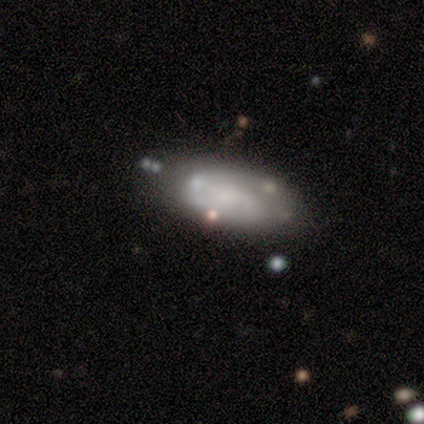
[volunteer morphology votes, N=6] A featured or disk galaxy (67%) with no bar (75%), 1 (50%, tied with 2) medium (50%, tied with loose) spiral arms (50%, tied with no) and no central bulge (75%).

Vote fractions:
- Smooth or featured? featured or disk: 67% / smooth: 17% / star or artifact: 17%
- Edge-on disk? no: 100% / yes: 0%
- Bar? no: 75% / weak: 25% / strong: 0%
- Spiral arms? yes: 50% (tied) / no: 50% (tied)
- Spiral winding? medium: 50% (tied) / loose: 50% (tied) / tight: 0%
- Spiral arm count? 1: 50% (tied) / 2: 50% (tied) / 3: 0% / 4: 0% / more than 4: 0% / can't tell: 0%
- Bulge size? none: 75% / small: 25% / dominant: 0% / large: 0% / moderate: 0%
- Merging? minor disturbance: 80% / merger: 20% / none: 0% / major disturbance: 0%